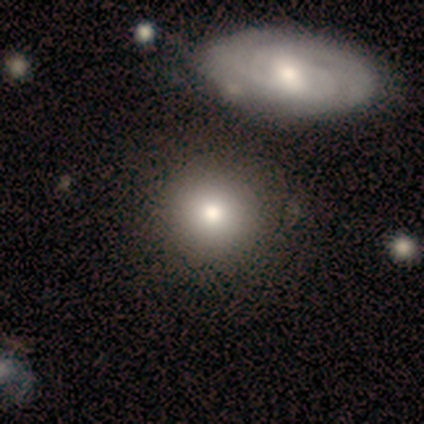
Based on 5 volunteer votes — This appears to be a smooth galaxy with no disk features (100%) that is round (100%). Merging: none (80%).